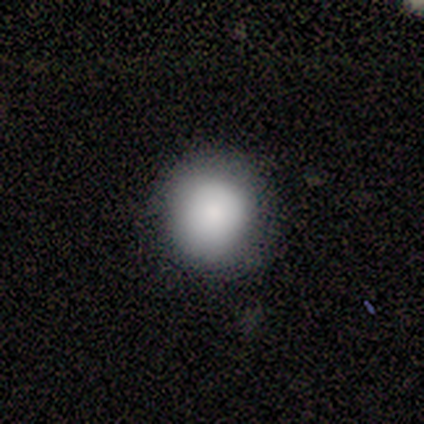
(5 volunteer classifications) Morphology: type=smooth (100%); roundness=round (100%); merging=none (100%).